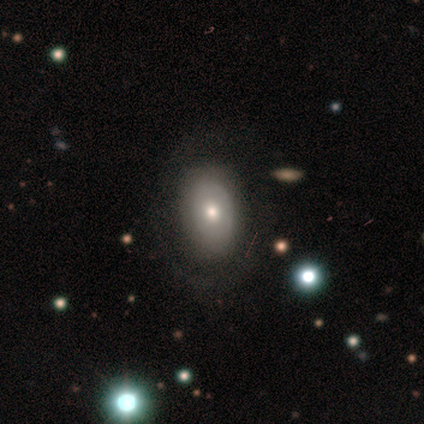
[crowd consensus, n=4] Overall: smooth (75%). How rounded: in between (67%; round 33%). Merging: none (67%; minor disturbance 33%).